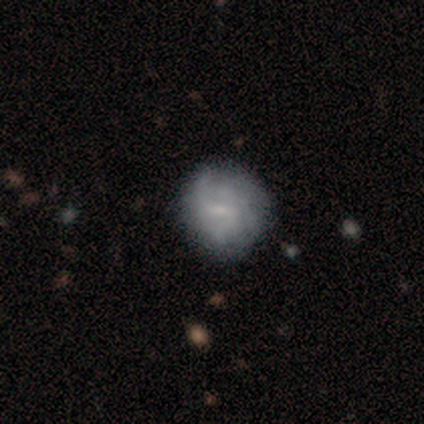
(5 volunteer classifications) This is clearly a featured or disk galaxy (80%). It is clearly not viewed edge-on (100%). Bar: possibly weak (50%, tied with no). Spiral arm pattern: likely yes (75%). Spiral arm count: likely can't tell (67%). Spiral winding: marginally tight (33%, tied with medium and loose). Central bulge: possibly small (50%). Merging: likely none (60%).